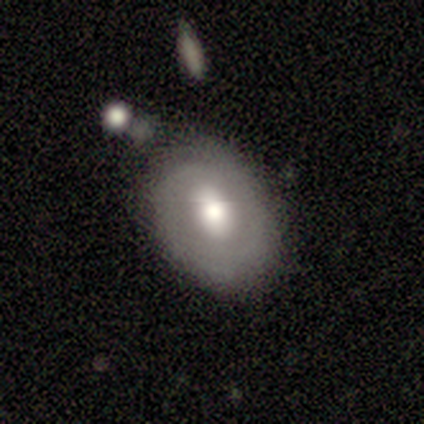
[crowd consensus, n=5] A smooth galaxy with no disk features (60%) that is in between round and cigar-shaped (100%).

Vote fractions:
- Smooth or featured? smooth: 60% / featured or disk: 40% / star or artifact: 0%
- How rounded? in between: 100% / round: 0% / cigar-shaped: 0%
- Merging? none: 60% / minor disturbance: 40% / major disturbance: 0% / merger: 0%